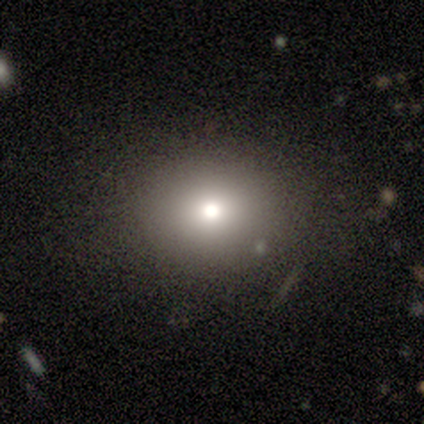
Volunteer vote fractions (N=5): Volunteers were most divided on "how rounded": round: 67%, in between: 33%, cigar-shaped: 0%. More confident: merging — none (75%); smooth or featured — smooth (60%).